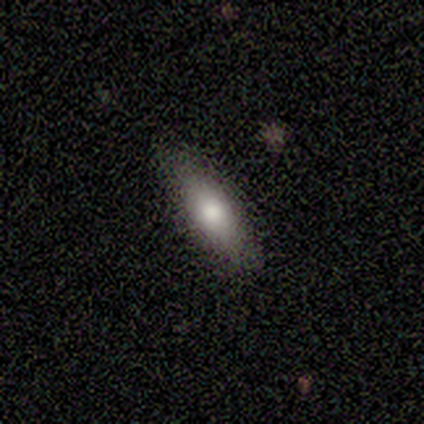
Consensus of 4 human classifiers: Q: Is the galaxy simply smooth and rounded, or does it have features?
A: smooth — 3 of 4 (75%).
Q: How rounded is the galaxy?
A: cigar-shaped — 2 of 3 (67%).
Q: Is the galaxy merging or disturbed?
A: none — 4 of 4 (100%).